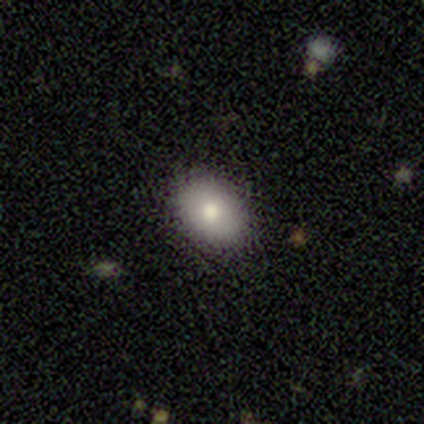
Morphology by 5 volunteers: A smooth galaxy with no disk features (80%) that is round (50%, tied with in between). Merging: none (100%).